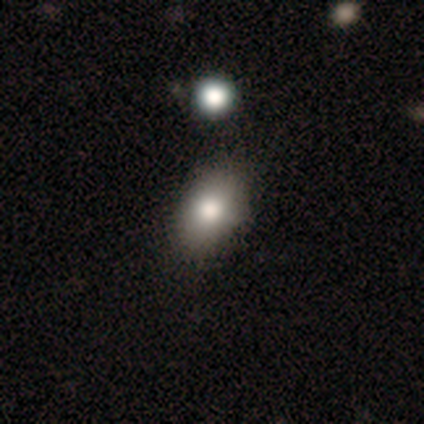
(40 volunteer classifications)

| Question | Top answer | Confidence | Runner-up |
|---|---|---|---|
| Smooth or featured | smooth | 72% | featured or disk (18%) |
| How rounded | in between | 90% | round (10%) |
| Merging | none | 56% | minor disturbance (17%) |